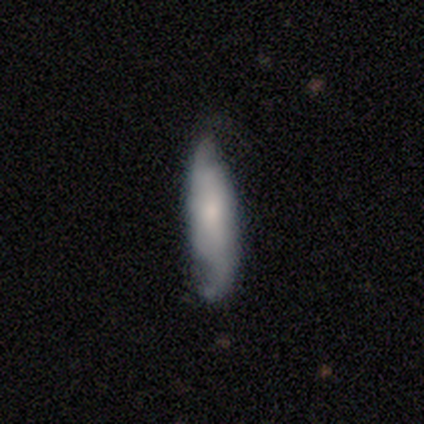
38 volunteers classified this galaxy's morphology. Q: Smooth or featured?
A: featured or disk (58%); runner-up: smooth (26%)
Q: Edge-on disk?
A: no (82%); runner-up: yes (18%)
Q: Bar?
A: no (67%); runner-up: weak (28%)
Q: Spiral arms?
A: yes (89%); runner-up: no (11%)
Q: Spiral winding?
A: medium (50%); tied with: loose (50%)
Q: Spiral arm count?
A: 2 (100%)
Q: Bulge size?
A: small (72%); runner-up: moderate (17%)
Q: Merging?
A: none (56%); runner-up: minor disturbance (22%)